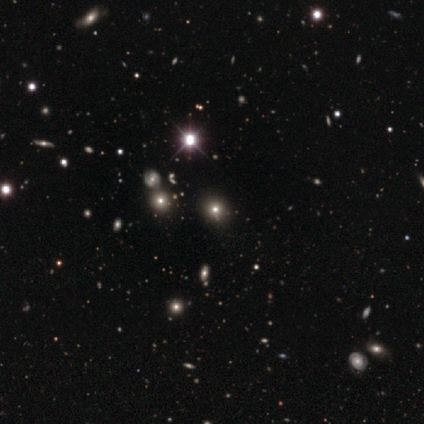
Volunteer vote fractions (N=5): This appears to be a star or artifact, not a galaxy (60%).